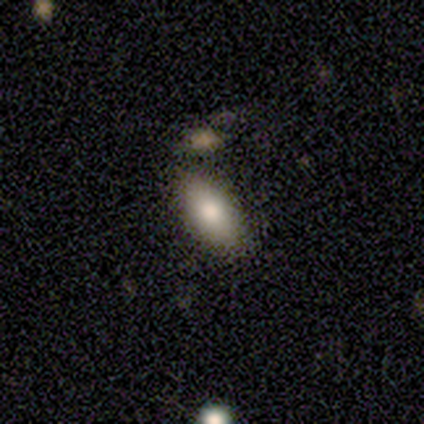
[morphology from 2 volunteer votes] Overall: smooth (100%). How rounded: in between (100%). Merging: none (100%).